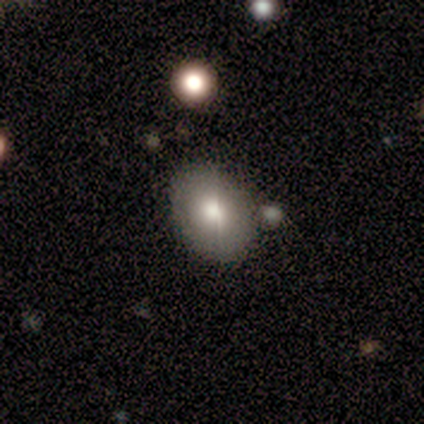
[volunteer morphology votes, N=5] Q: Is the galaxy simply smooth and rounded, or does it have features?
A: smooth — 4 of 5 (80%).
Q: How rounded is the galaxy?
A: round — 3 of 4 (75%).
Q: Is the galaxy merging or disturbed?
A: none — 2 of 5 (40%, tied with merger).